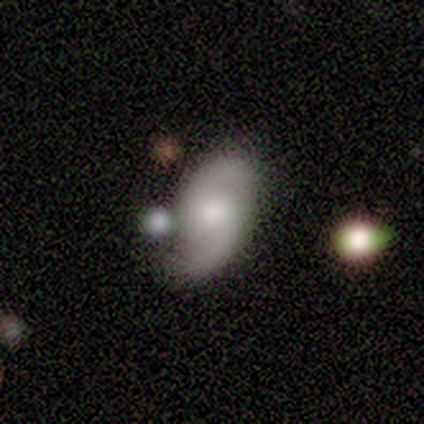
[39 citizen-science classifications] Smooth or featured: featured or disk — 56% (smooth — 36%)
Edge-on disk: no — 100%
Bar: no — 73% (weak — 27%)
Spiral arms: yes — 100%
Spiral winding: loose — 64% (medium — 32%)
Spiral arm count: 2 — 100%
Bulge size: moderate — 68% (large — 18%)
Merging: none — 58% (minor disturbance — 25%)